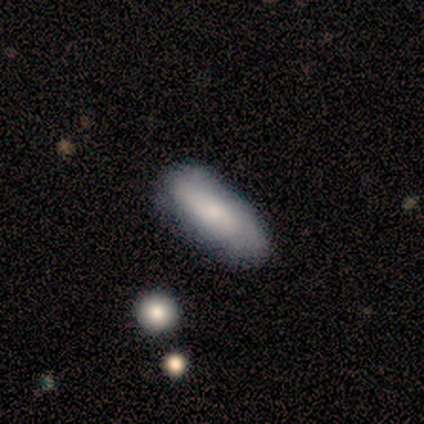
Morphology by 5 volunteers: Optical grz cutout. It shows a smooth galaxy with no disk features (80%) that is in between round and cigar-shaped (100%). Merging: none (80%).